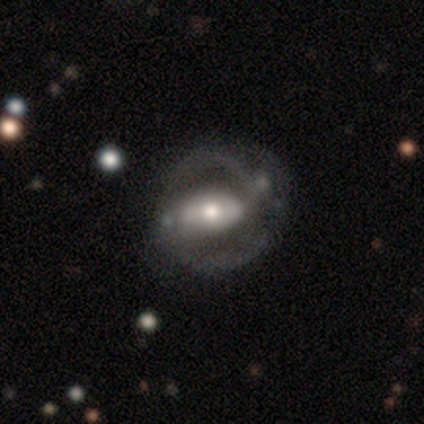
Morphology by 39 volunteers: smooth_or_featured: featured or disk (p=0.90) [alt: smooth p=0.10]
disk_edge_on: no (p=1.00)
bar: strong (p=0.43) [alt: no p=0.37]
has_spiral_arms: yes (p=0.80) [alt: no p=0.20]
spiral_winding: medium (p=0.57) [alt: tight p=0.29]
spiral_arm_count: 2 (p=1.00)
bulge_size: moderate (p=0.71) [alt: large p=0.23]
merging: none (p=0.33) [alt: minor disturbance p=0.23]